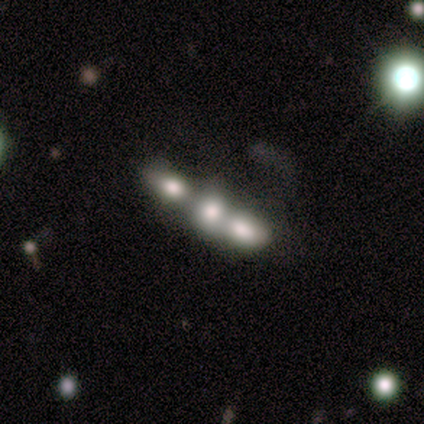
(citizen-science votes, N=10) A smooth galaxy with no disk features (60%) that is in between round and cigar-shaped (50%). Merging: merger (70%).